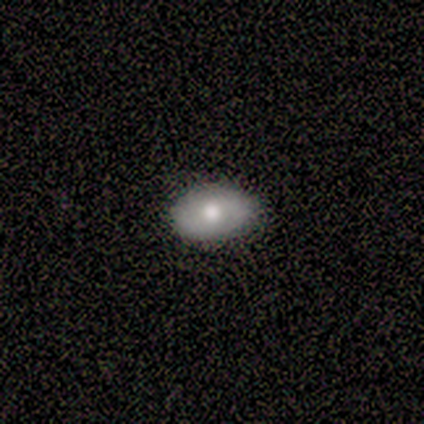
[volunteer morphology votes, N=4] Overall: smooth (50%, tied with featured or disk). How rounded: round (50%, tied with in between). Merging: none (75%).